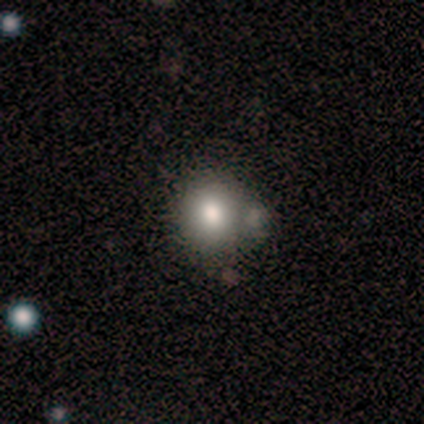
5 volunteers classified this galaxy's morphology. smooth-or-featured: smooth: 100% | featured or disk: 0% | star or artifact: 0%
  how-rounded: round: 80% | in between: 20% | cigar-shaped: 0%
  merging: none: 40% (tied) | minor disturbance: 40% (tied) | merger: 20% | major disturbance: 0%